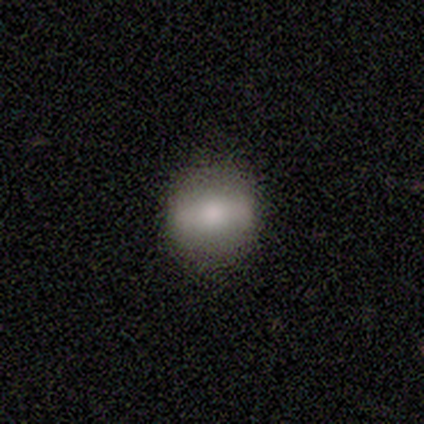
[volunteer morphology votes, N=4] smooth 50%, featured or disk 25%, star or artifact 25%. Down the decision tree: how rounded — round (100%); merging — none (100%).